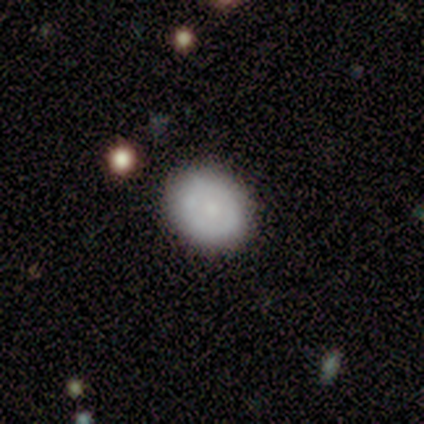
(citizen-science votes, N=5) Overall: smooth (80%). How rounded: in between (75%). Merging: none (80%).